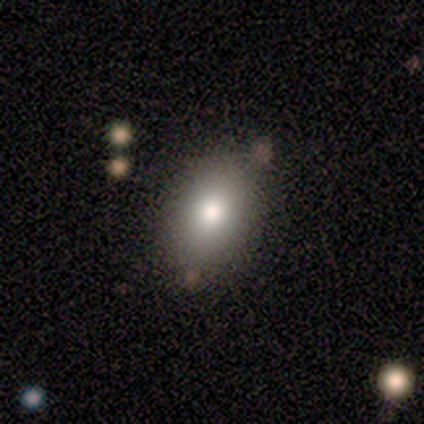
smooth_or_featured: smooth (p=0.57) [alt: star or artifact p=0.29]
how_rounded: in between (p=1.00)
merging: none (p=0.80) [alt: minor disturbance p=0.20]